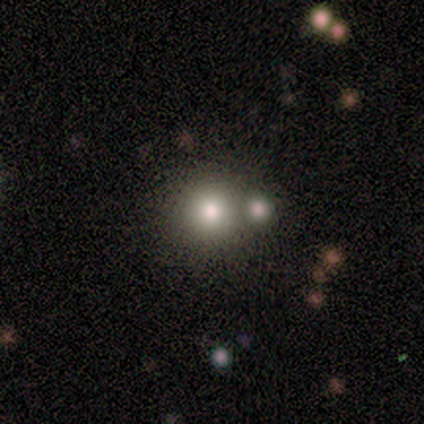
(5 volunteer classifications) Smooth or featured: smooth — 60% (featured or disk — 20%)
How rounded: round — 100%
Merging: merger — 75% (none — 25%)